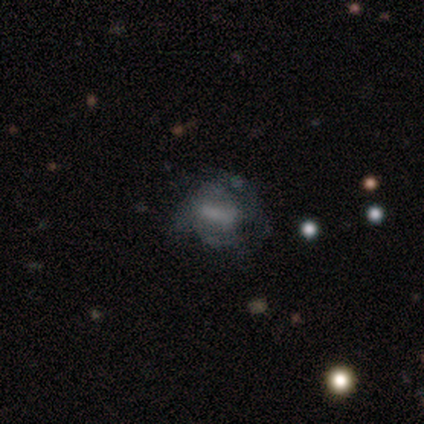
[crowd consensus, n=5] Smooth or featured? 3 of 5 (60%) said featured or disk. Edge-on disk? 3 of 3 (100%) said no. Bar? 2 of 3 (67%) said strong. Spiral arms? 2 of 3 (67%) said yes. Spiral winding? 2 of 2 (100%) said medium. Spiral arm count? 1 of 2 (50%, tied with 3) said 2. Bulge size? 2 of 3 (67%) said none. Merging? 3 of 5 (60%) said major disturbance.